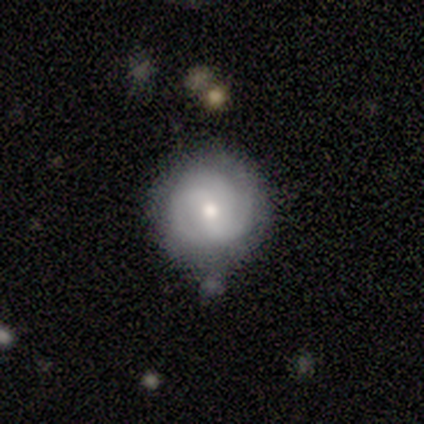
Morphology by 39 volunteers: type=featured or disk (77%); edge-on=no (100%); bar=no (63%); spiral arms=yes (83%); winding=tight (80%); arm count=3 (52%); bulge=moderate (60%); merging=none (68%).